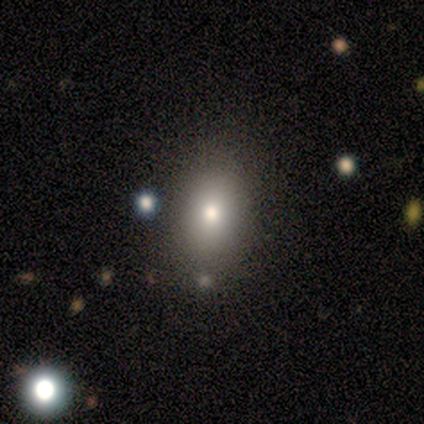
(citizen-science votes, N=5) This is clearly a smooth galaxy (80%). How rounded: likely in between (75%). Merging: clearly none (100%).